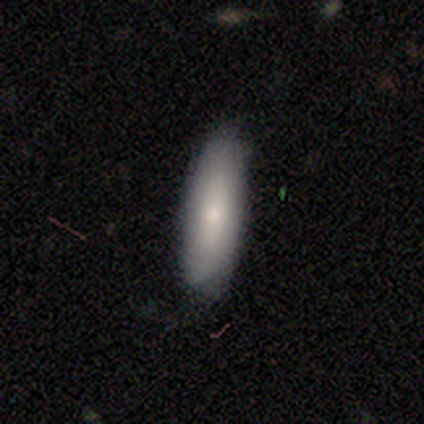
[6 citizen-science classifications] Smooth or featured? smooth (67%)
How rounded? cigar-shaped (75%)
Merging? none (100%)